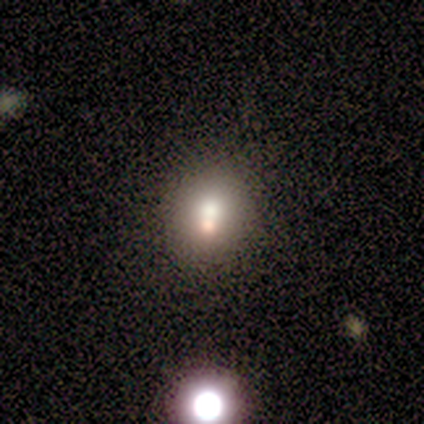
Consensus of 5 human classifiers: Overall: smooth (60%; featured or disk 20%). How rounded: round (100%). Merging: none (75%).